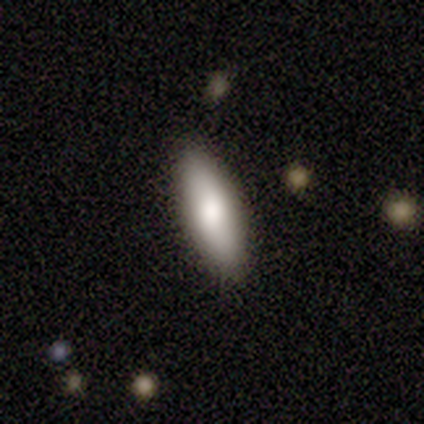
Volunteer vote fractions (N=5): Smooth or featured? smooth (80%)
How rounded? in between (100%)
Merging? none (80%)